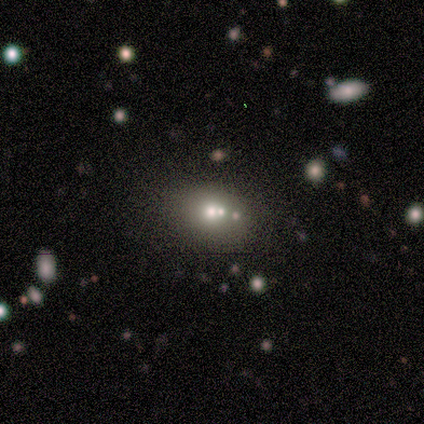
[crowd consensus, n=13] Smooth or featured: smooth — 54% (star or artifact — 31%)
How rounded: round — 57% (in between — 43%)
Merging: none — 78% (merger — 22%)